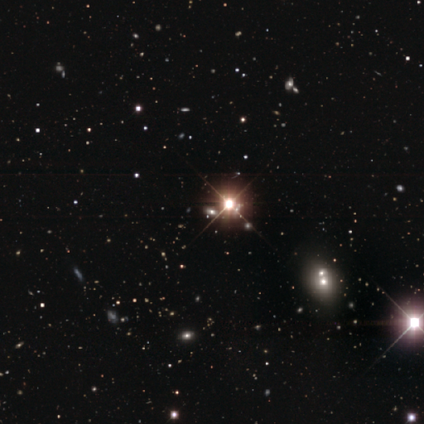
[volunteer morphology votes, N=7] smooth_or_featured: star or artifact (p=0.86) [alt: smooth p=0.14]